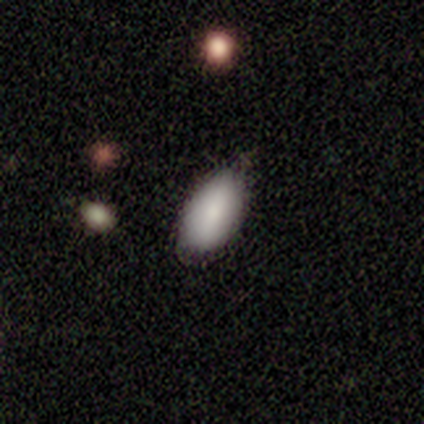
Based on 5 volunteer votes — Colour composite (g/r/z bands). It shows a smooth galaxy with no disk features (80%) that is in between round and cigar-shaped (100%). Merging: none (80%).